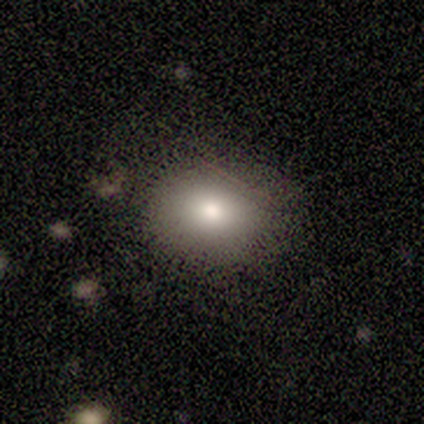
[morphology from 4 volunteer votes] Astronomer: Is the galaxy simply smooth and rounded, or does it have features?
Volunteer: smooth — 75%.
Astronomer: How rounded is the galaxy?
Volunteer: in between — 67%.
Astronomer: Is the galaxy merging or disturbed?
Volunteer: none — 50%.